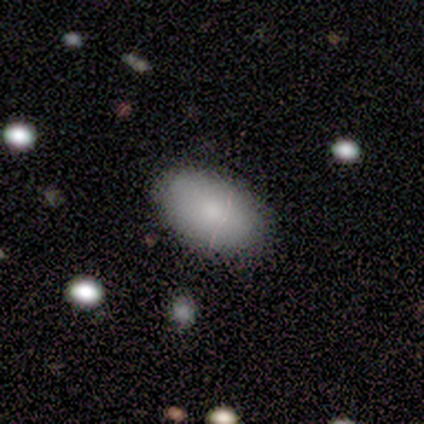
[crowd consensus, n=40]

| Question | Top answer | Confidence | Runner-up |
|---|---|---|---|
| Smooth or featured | smooth | 85% | featured or disk (10%) |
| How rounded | in between | 94% | round (3%) |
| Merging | none | 87% | minor disturbance (11%) |